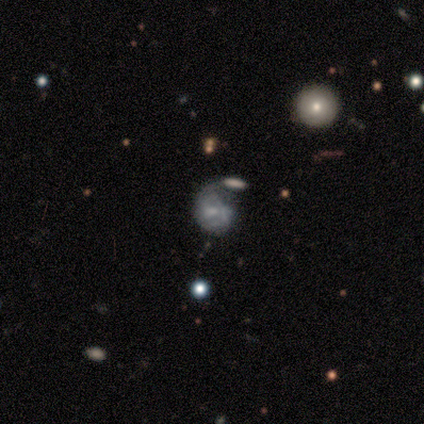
Smooth or featured? featured or disk (50%)
Edge-on disk? no (100%)
Bar? no (100%)
Spiral arms? yes (50%, tied with no)
Spiral winding? loose (100%)
Spiral arm count? 1 (100%)
Bulge size? small (50%, tied with none)
Merging? major disturbance (67%)